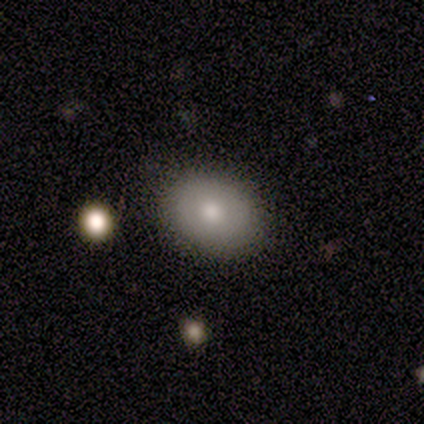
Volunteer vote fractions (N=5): A smooth galaxy with no disk features (80%) that is round (75%). Merging: none (100%).